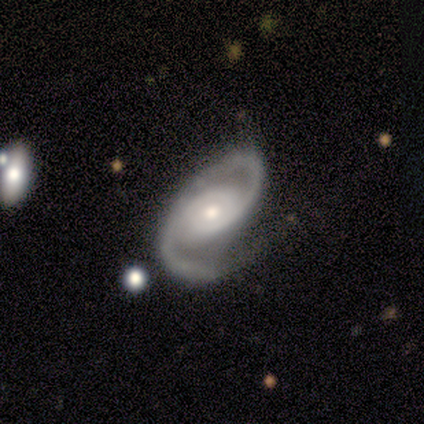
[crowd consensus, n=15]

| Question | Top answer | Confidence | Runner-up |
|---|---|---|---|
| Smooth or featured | featured or disk | 93% | smooth (7%) |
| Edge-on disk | no | 100% | — |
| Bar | no | 86% | weak (14%) |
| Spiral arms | yes | 100% | — |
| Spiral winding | medium | 86% | loose (14%) |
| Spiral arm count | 2 | 100% | — |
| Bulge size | moderate | 57% | small (43%) |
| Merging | none | 27% | minor disturbance (13%) |